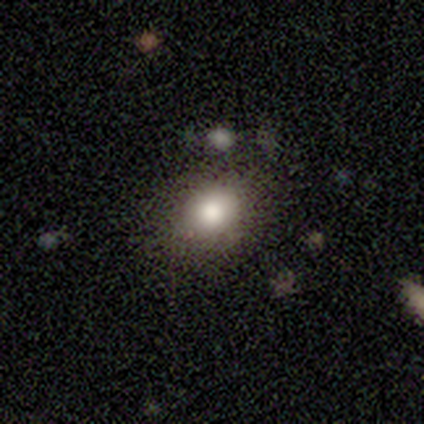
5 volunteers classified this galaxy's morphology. smooth_or_featured: smooth (p=1.00)
how_rounded: in between (p=0.60) [alt: round p=0.40]
merging: none (p=1.00)